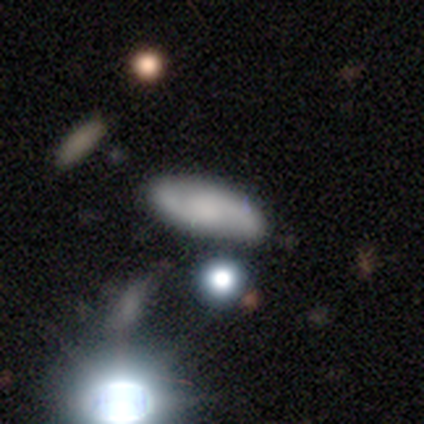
Smooth or featured: featured or disk — 75% (smooth — 25%)
Edge-on disk: no — 100%
Bar: no — 67% (weak — 33%)
Spiral arms: yes — 100%
Spiral winding: medium — 67% (loose — 33%)
Spiral arm count: 2 — 100%
Bulge size: none — 100%
Merging: none — 75% (minor disturbance — 25%)